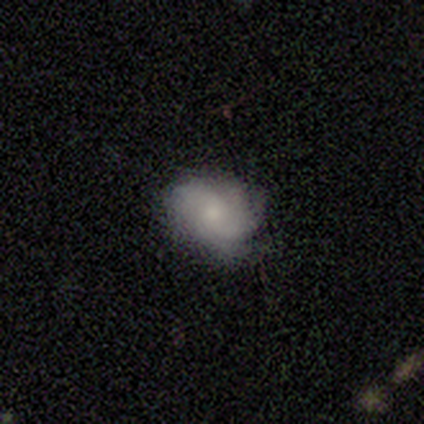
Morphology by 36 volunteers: A featured or disk galaxy (67%) with no bar (83%), medium (48%) spiral arms (96%) and a small central bulge (58%).

Vote fractions:
- Smooth or featured? featured or disk: 67% / smooth: 25% / star or artifact: 8%
- Edge-on disk? no: 100% / yes: 0%
- Bar? no: 83% / weak: 17% / strong: 0%
- Spiral arms? yes: 96% / no: 4%
- Spiral winding? medium: 48% / tight: 30% / loose: 22%
- Spiral arm count? can't tell: 39% / 2: 22% / 4: 17% / 3: 13% / 1: 4% / more than 4: 4%
- Bulge size? small: 58% / moderate: 25% / none: 12% / large: 4% / dominant: 0%
- Merging? none: 67% / minor disturbance: 24% / major disturbance: 6% / merger: 3%